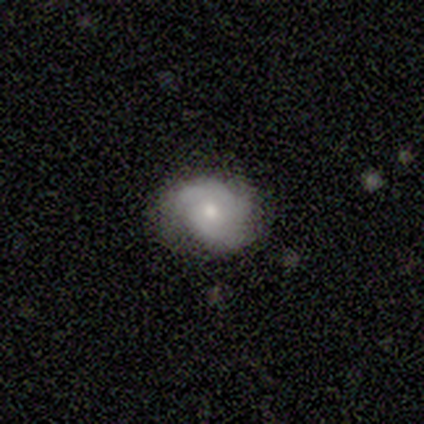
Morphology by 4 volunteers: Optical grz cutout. It shows a featured or disk galaxy (75%) with no bar (100%), 2 (33%, tied with 3 and can't tell) tight (67%) spiral arms (100%) and a moderate central bulge (67%). Merging: none (100%).